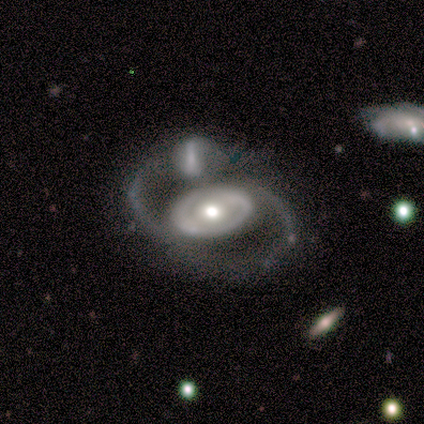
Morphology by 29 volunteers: Volunteers were most divided on "spiral winding": medium: 50%, loose: 38%, tight: 12%. Remaining: edge-on disk — no (100%); smooth or featured — featured or disk (90%); spiral arm count — 2 (88%); bulge size — moderate (85%); bar — no (77%); spiral arms — yes (62%); merging — merger (38%).